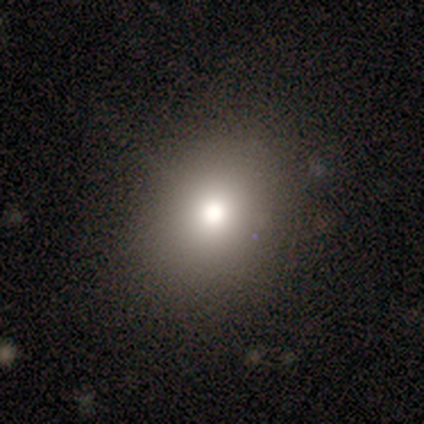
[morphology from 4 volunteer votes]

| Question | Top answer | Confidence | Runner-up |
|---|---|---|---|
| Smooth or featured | smooth | 75% | star or artifact (25%) |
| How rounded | in between | 67% | round (33%) |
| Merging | none | 100% | — |